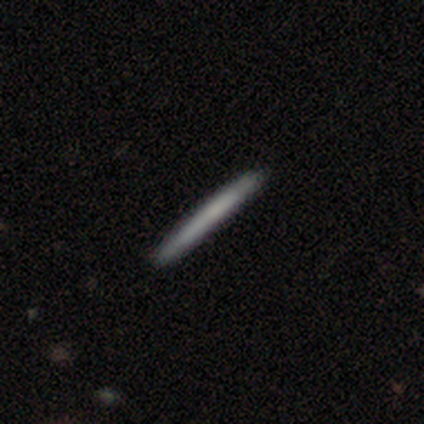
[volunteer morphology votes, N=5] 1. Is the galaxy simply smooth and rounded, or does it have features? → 60% smooth, 40% featured or disk, 0% star or artifact.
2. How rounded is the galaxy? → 100% cigar-shaped, 0% round, 0% in between.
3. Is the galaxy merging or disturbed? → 100% none, 0% minor disturbance, 0% major disturbance, 0% merger.